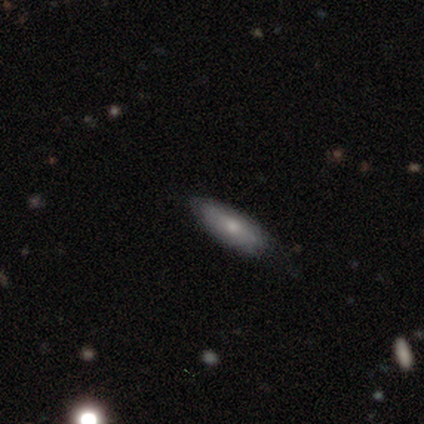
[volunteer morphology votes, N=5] Smooth or featured?
  - smooth: 80% *
  - featured or disk: 20%
  - star or artifact: 0%
How rounded?
  - in between: 75% *
  - cigar-shaped: 25%
  - round: 0%
Merging?
  - none: 60% *
  - minor disturbance: 20%
  - major disturbance: 20%
  - merger: 0%